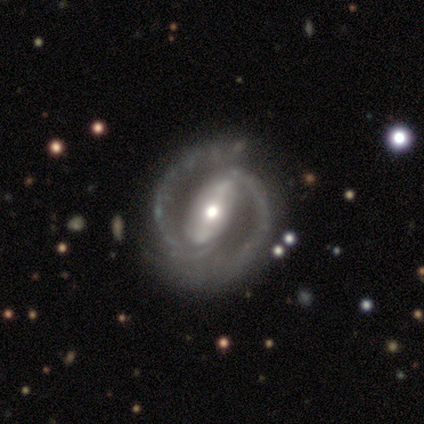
Morphology: type=featured or disk (87%); edge-on=no (100%); bar=strong (69%); spiral arms=yes (100%); winding=medium (46%); arm count=2 (100%); bulge=moderate (69%); merging=none (29%).